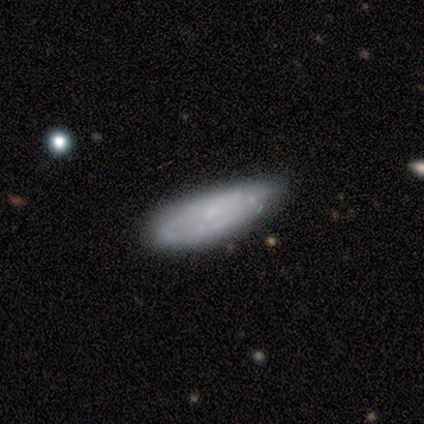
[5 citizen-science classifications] smooth-or-featured: smooth: 60% | featured or disk: 40% | star or artifact: 0%
  how-rounded: cigar-shaped: 67% | in between: 33% | round: 0%
  merging: minor disturbance: 80% | none: 20% | major disturbance: 0% | merger: 0%